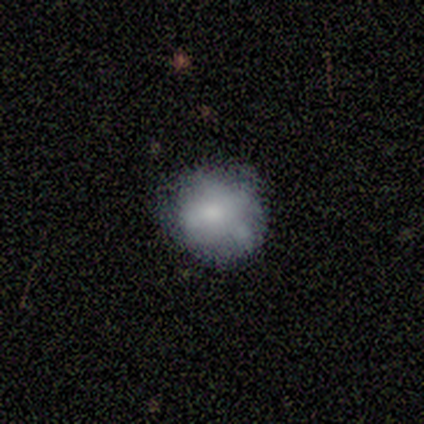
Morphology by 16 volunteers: Smooth or featured? smooth (69%)
How rounded? round (64%)
Merging? minor disturbance (62%)